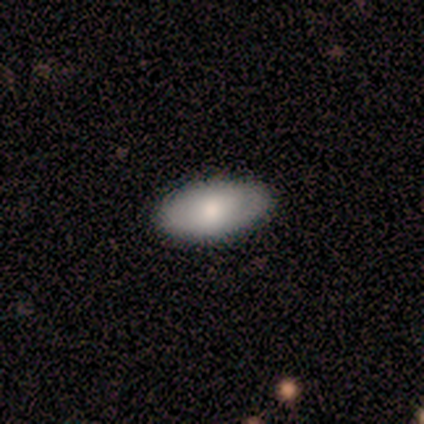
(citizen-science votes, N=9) Overall: smooth (67%; featured or disk 33%). How rounded: in between (100%). Merging: none (100%).